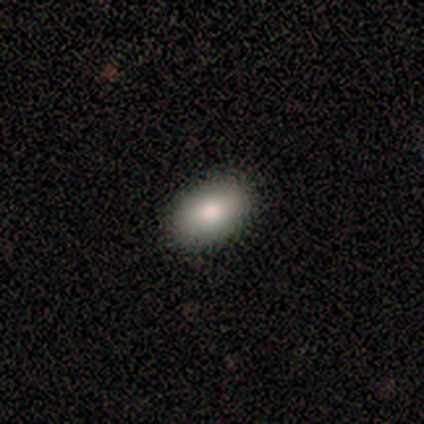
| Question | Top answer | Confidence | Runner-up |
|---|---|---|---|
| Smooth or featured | smooth | 80% | featured or disk (20%) |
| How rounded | in between | 100% | — |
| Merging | none | 80% | minor disturbance (20%) |